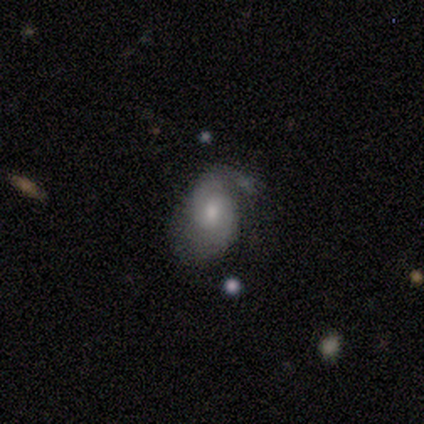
Morphology: type=featured or disk (60%); edge-on=no (100%); bar=no (67%); spiral arms=yes (67%); winding=tight (50%, tied with medium); arm count=2 (100%); bulge=moderate (67%); merging=none (50%).